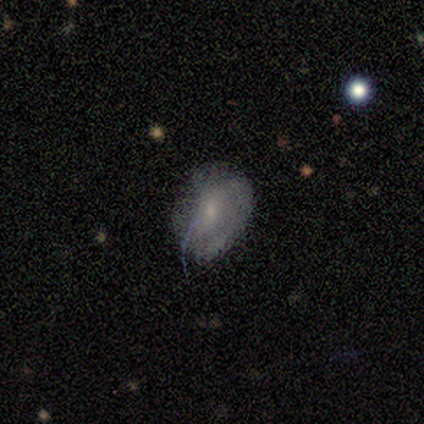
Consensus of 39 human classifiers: smooth_or_featured: smooth (p=0.54) [alt: featured or disk p=0.38]
how_rounded: in between (p=0.76) [alt: round p=0.24]
merging: none (p=0.50) [alt: minor disturbance p=0.39]